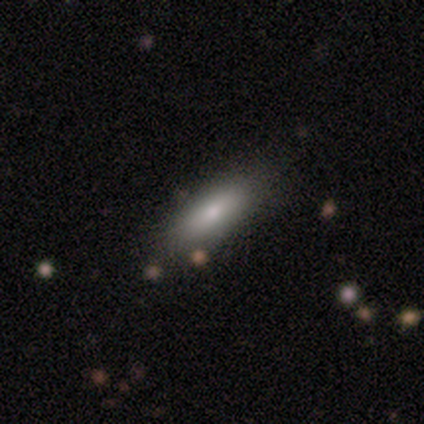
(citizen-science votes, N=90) A smooth galaxy with no disk features (78%) that is in between round and cigar-shaped (53%). Merging: none (76%).